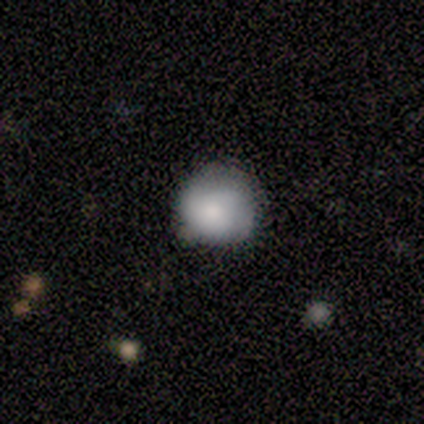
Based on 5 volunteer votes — This appears to be a smooth galaxy with no disk features (100%) that is round (100%). Merging: none (60%).